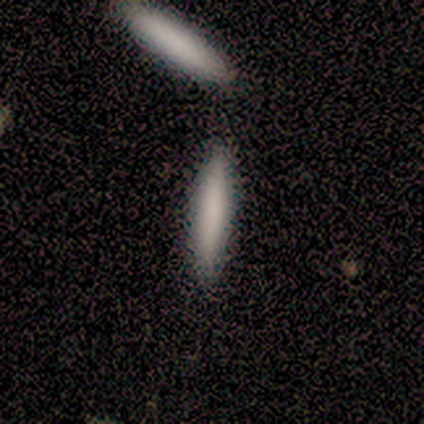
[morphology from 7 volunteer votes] Overall: smooth (71%). How rounded: cigar-shaped (80%). Merging: none (71%).